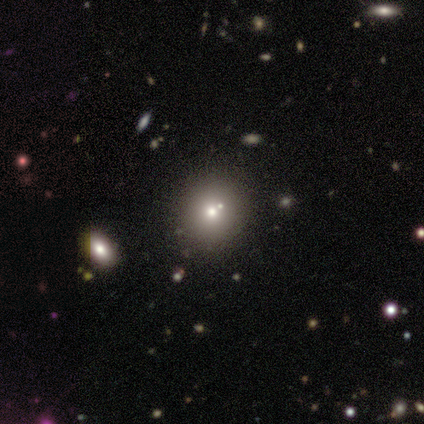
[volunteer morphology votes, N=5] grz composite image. It shows a smooth galaxy with no disk features (40%, tied with star or artifact) that is round (100%). Merging: merger (67%).